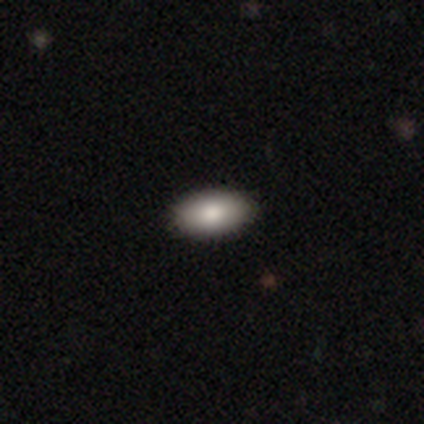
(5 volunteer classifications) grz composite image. It shows a smooth galaxy with no disk features (80%) that is in between round and cigar-shaped (100%). Merging: none (100%).